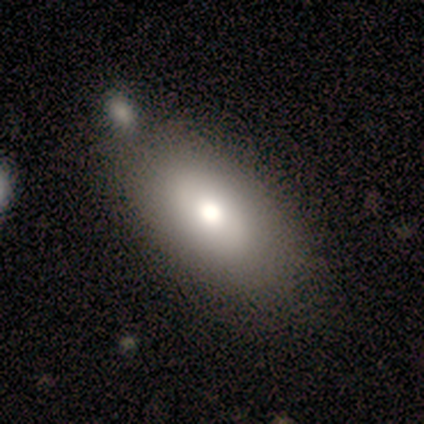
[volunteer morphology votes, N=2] smooth_or_featured: smooth (p=1.00)
how_rounded: in between (p=1.00)
merging: none (p=1.00)